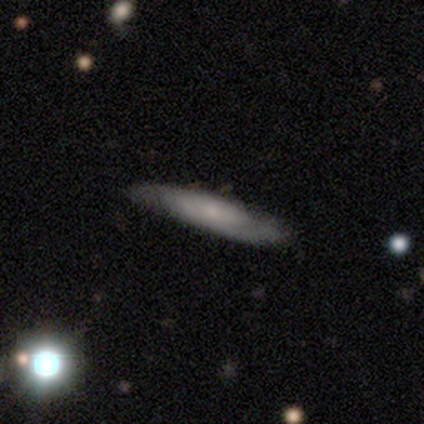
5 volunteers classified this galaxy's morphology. Smooth or featured? 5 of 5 (100%) said featured or disk. Edge-on disk? 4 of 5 (80%) said no. Bar? 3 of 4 (75%) said no. Spiral arms? 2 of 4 (50%, tied with no) said yes. Spiral winding? 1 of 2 (50%, tied with medium) said tight. Spiral arm count? 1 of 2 (50%, tied with can't tell) said 2. Bulge size? 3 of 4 (75%) said none. Merging? 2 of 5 (40%, tied with minor disturbance) said none.